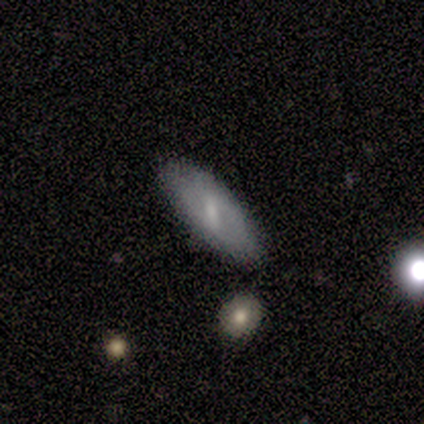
Smooth or featured? featured or disk (60%)
Edge-on disk? no (67%)
Bar? strong (100%)
Spiral arms? yes (50%, tied with no)
Spiral winding? tight (100%)
Spiral arm count? 3 (100%)
Bulge size? moderate (50%, tied with small)
Merging? none (80%)